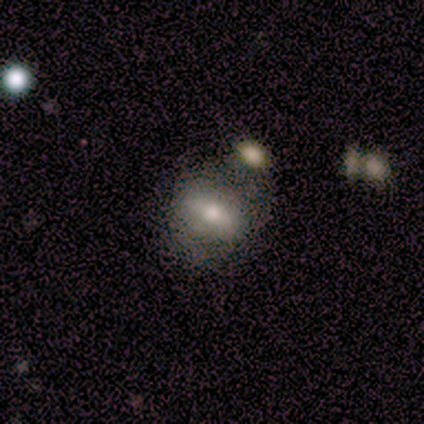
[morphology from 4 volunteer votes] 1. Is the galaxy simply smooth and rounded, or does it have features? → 50% smooth (tied), 50% featured or disk (tied), 0% star or artifact.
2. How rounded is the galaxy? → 100% in between, 0% round, 0% cigar-shaped.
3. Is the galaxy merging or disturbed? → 75% none, 25% merger, 0% minor disturbance, 0% major disturbance.